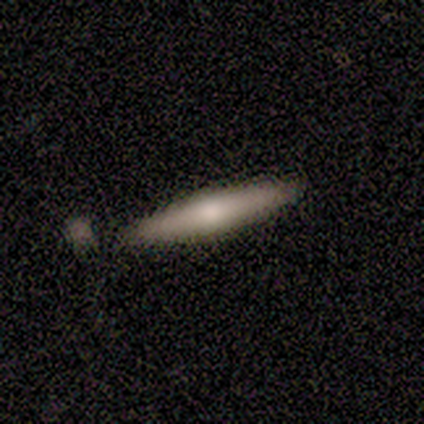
A smooth galaxy with no disk features (100%) that is cigar-shaped (100%).

Vote fractions:
- Smooth or featured? smooth: 100% / featured or disk: 0% / star or artifact: 0%
- How rounded? cigar-shaped: 100% / round: 0% / in between: 0%
- Merging? none: 60% / minor disturbance: 20% / merger: 20% / major disturbance: 0%